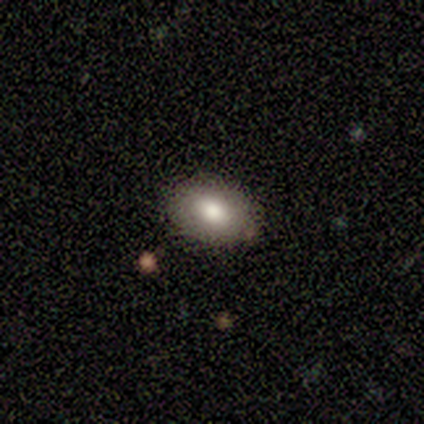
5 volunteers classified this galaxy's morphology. A smooth galaxy with no disk features (60%) that is in between round and cigar-shaped (100%). Merging: none (100%).